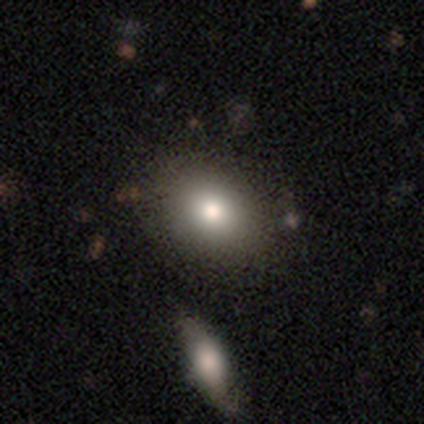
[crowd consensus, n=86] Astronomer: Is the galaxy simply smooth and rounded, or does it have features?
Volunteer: smooth — 77%.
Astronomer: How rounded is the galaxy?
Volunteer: in between — 65%.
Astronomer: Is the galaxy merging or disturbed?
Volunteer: none — 74%.